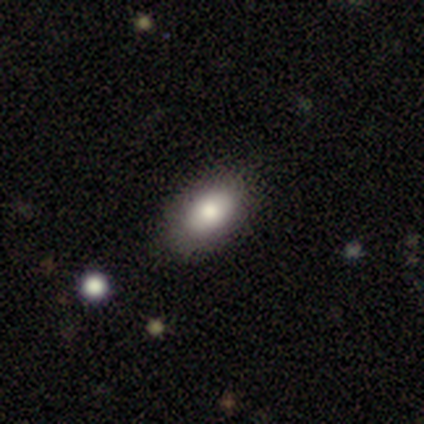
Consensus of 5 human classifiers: This is likely a smooth galaxy (60%). How rounded: clearly in between (100%). Merging: clearly none (100%).